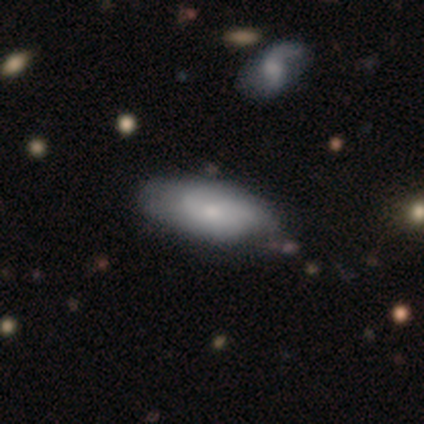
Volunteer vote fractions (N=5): Q: Smooth or featured?
A: smooth (60%); runner-up: featured or disk (40%)
Q: How rounded?
A: cigar-shaped (67%); runner-up: in between (33%)
Q: Merging?
A: none (80%); runner-up: minor disturbance (20%)